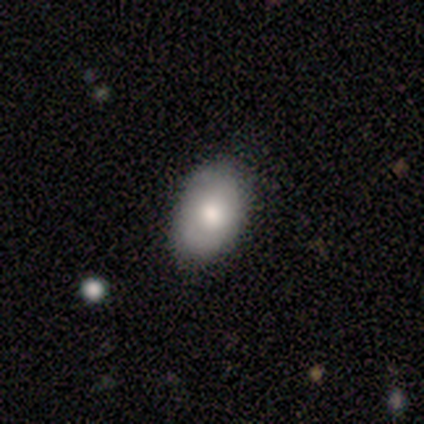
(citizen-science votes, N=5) Overall: smooth (100%). How rounded: in between (100%). Merging: none (80%).